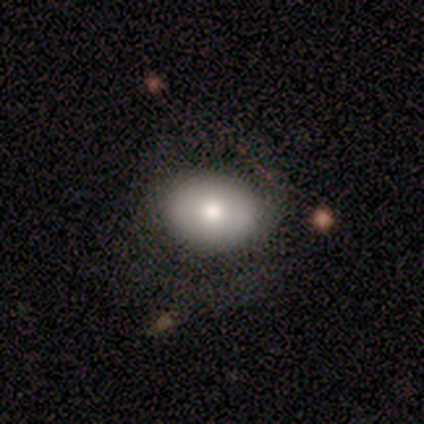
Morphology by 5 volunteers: smooth-or-featured: smooth: 100% | featured or disk: 0% | star or artifact: 0%
  how-rounded: round: 60% | in between: 40% | cigar-shaped: 0%
  merging: none: 60% | minor disturbance: 20% | major disturbance: 20% | merger: 0%